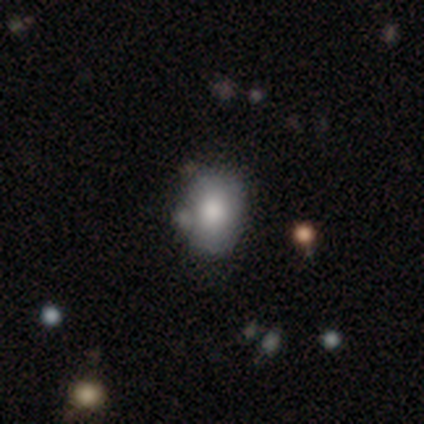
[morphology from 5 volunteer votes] smooth 60%, featured or disk 20%, star or artifact 20%. Down the decision tree: how rounded — round (67%); merging — minor disturbance (50%).